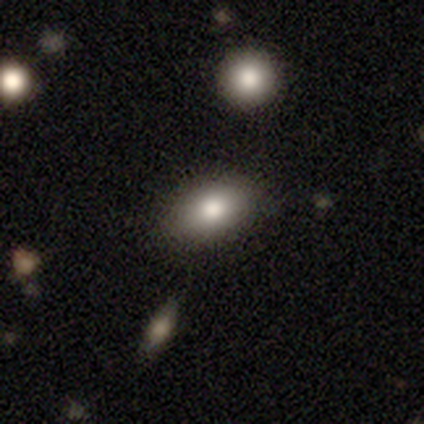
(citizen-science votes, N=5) Smooth or featured? smooth (100%)
How rounded? in between (80%)
Merging? none (80%)